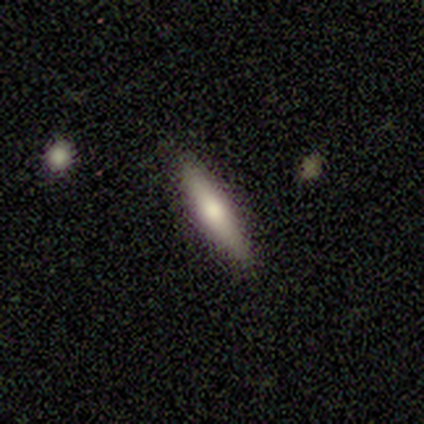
This is likely a featured or disk galaxy (67%). It is clearly viewed edge-on (100%). Edge-on bulge: clearly rounded (100%). Merging: clearly none (100%).